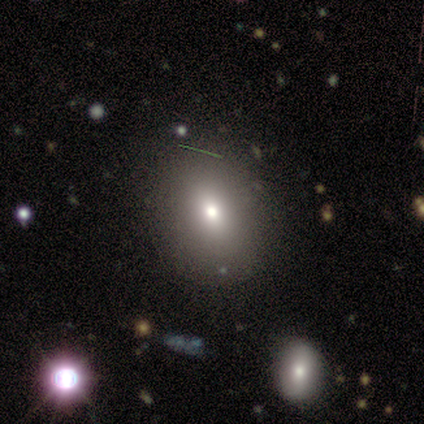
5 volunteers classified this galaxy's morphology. Smooth or featured? smooth (80%)
How rounded? in between (75%)
Merging? none (75%)